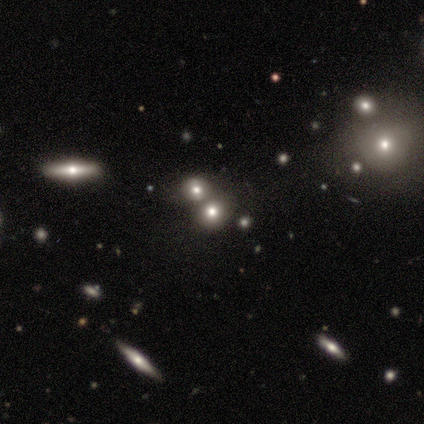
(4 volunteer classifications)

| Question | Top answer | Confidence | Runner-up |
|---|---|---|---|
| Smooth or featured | smooth | 75% | featured or disk (25%) |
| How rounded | round | 100% | — |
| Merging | merger | 75% | none (25%) |